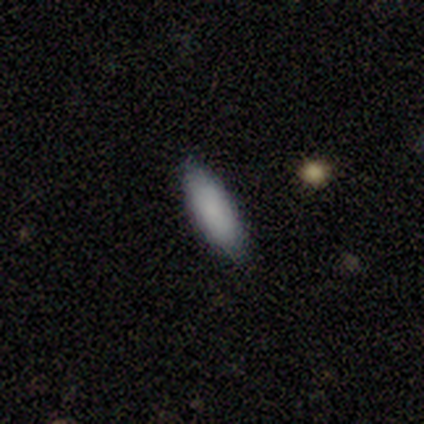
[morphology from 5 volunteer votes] Smooth or featured? smooth (100%)
How rounded? cigar-shaped (60%)
Merging? none (60%)